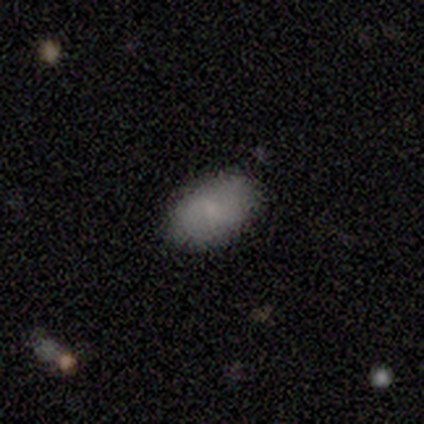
Overall: smooth (90%). How rounded: in between (89%). Merging: none (100%).